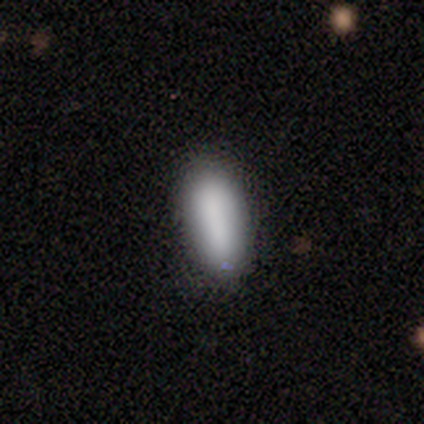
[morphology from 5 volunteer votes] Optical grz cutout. It shows a smooth galaxy with no disk features (100%) that is in between round and cigar-shaped (60%). Merging: none (60%).